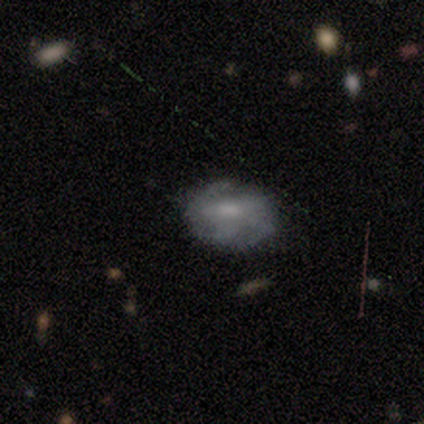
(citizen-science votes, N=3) A smooth galaxy with no disk features (67%) that is in between round and cigar-shaped (100%).

Vote fractions:
- Smooth or featured? smooth: 67% / featured or disk: 33% / star or artifact: 0%
- How rounded? in between: 100% / round: 0% / cigar-shaped: 0%
- Merging? none: 100% / minor disturbance: 0% / major disturbance: 0% / merger: 0%